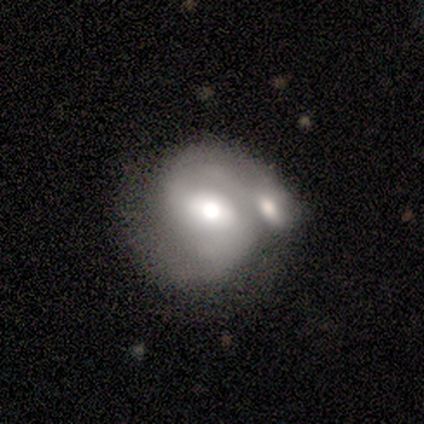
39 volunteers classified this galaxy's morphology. A featured or disk galaxy (79%) with a weak bar (57%), 2 (72%) medium (44%) spiral arms (89%) and a moderate central bulge (79%).

Vote fractions:
- Smooth or featured? featured or disk: 79% / smooth: 21% / star or artifact: 0%
- Edge-on disk? no: 90% / yes: 10%
- Bar? weak: 57% / no: 29% / strong: 14%
- Spiral arms? yes: 89% / no: 11%
- Spiral winding? medium: 44% / tight: 32% / loose: 24%
- Spiral arm count? 2: 72% / 1: 16% / 3: 12% / 4: 0% / more than 4: 0% / can't tell: 0%
- Bulge size? moderate: 79% / large: 18% / dominant: 4% / small: 0% / none: 0%
- Merging? merger: 56% / none: 23% / major disturbance: 13% / minor disturbance: 8%